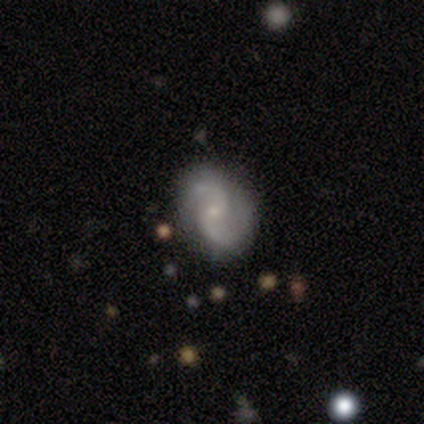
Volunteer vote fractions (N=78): This is clearly a featured or disk galaxy (87%). It is clearly not viewed edge-on (99%). Bar: likely no (67%). Spiral arm pattern: clearly yes (99%). Spiral arm count: clearly 2 (95%). Spiral winding: possibly medium (48%). Central bulge: likely small (75%). Merging: marginally none (41%).